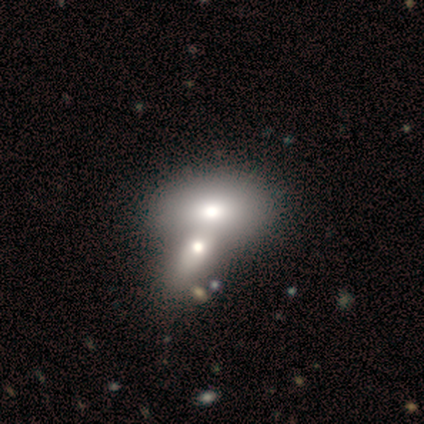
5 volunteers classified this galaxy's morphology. This is likely a smooth galaxy (60%). How rounded: clearly in between (100%). Merging: likely merger (75%).